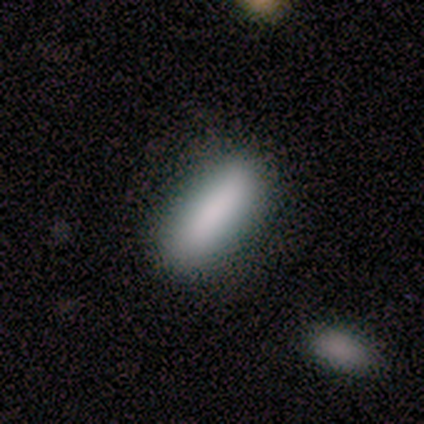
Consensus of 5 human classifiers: Smooth or featured?
  - smooth: 80% *
  - star or artifact: 20%
  - featured or disk: 0%
How rounded?
  - in between: 75% *
  - cigar-shaped: 25%
  - round: 0%
Merging?
  - none: 100% *
  - minor disturbance: 0%
  - major disturbance: 0%
  - merger: 0%